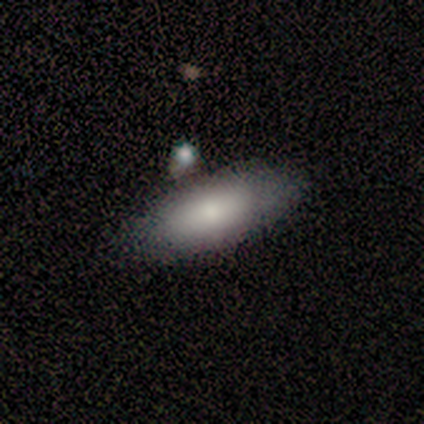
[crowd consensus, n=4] A smooth galaxy with no disk features (100%) that is in between round and cigar-shaped (100%). Merging: none (75%).